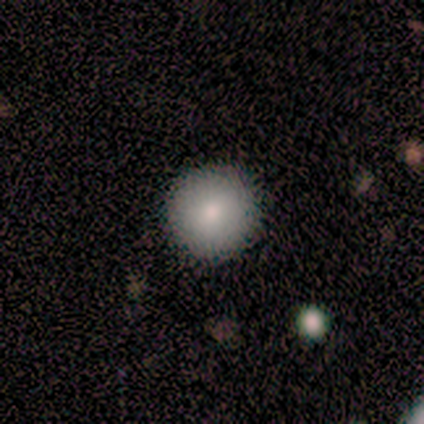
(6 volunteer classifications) Volunteers were most divided on "merging": none: 67%, minor disturbance: 33%, major disturbance: 0%, merger: 0%. More confident: how rounded — round (100%); smooth or featured — smooth (83%).